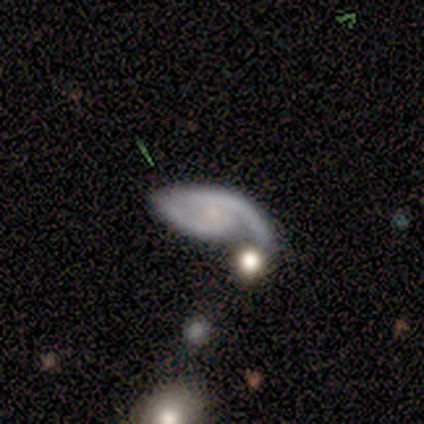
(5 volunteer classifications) featured or disk 80%, star or artifact 20%, smooth 0%. Down the decision tree: edge-on disk — no (100%); bar — no (100%); spiral arms — yes (100%); spiral arm count — 1 (75%); spiral winding — tight (50%, tied with medium); bulge size — small (100%); merging — none (25%, tied with minor disturbance, major disturbance and merger).